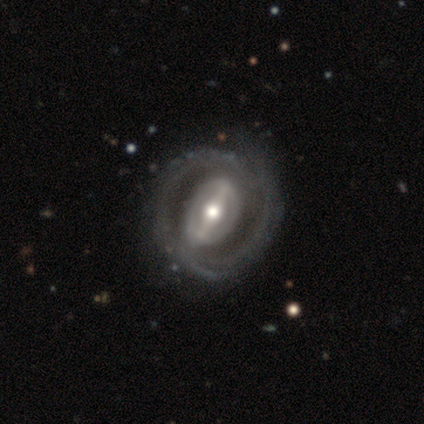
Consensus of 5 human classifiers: This is clearly a featured or disk galaxy (80%). It is clearly not viewed edge-on (100%). Bar: clearly strong (100%). Spiral arm pattern: likely yes (75%). Spiral arm count: likely 2 (67%). Spiral winding: likely medium (67%). Central bulge: possibly large (50%, tied with moderate). Merging: likely none (75%).